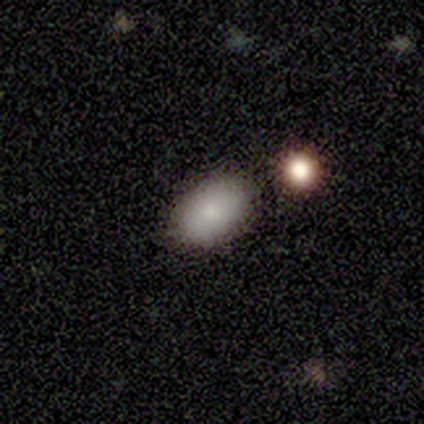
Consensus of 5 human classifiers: This is likely a smooth galaxy (60%). How rounded: clearly in between (100%). Merging: clearly none (100%).